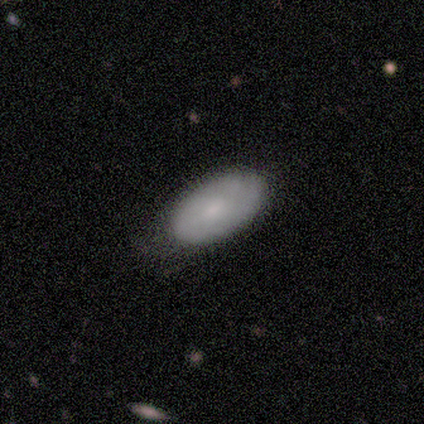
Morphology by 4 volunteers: Smooth or featured? smooth (50%)
How rounded? in between (100%)
Merging? none (33%, tied with minor disturbance and major disturbance)